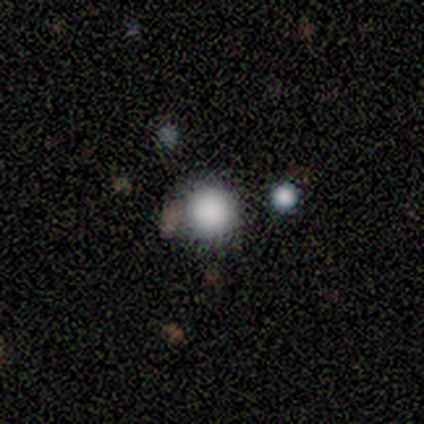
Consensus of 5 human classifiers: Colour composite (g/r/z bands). It shows a smooth galaxy with no disk features (100%) that is round (100%). Merging: none (60%).